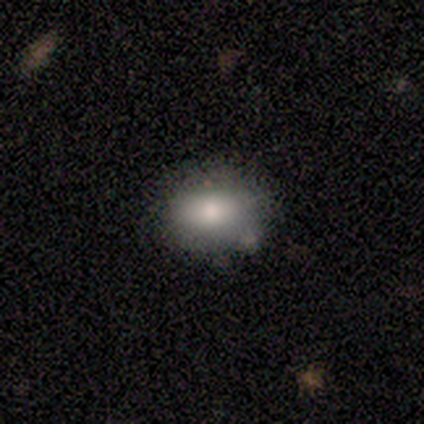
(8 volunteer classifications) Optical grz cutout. It shows a smooth galaxy with no disk features (100%) that is in between round and cigar-shaped (88%). Merging: none (62%).